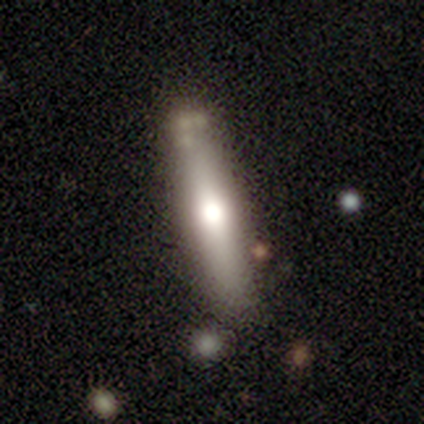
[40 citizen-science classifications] smooth_or_featured: featured or disk (p=0.68) [alt: smooth p=0.30]
disk_edge_on: yes (p=0.93) [alt: no p=0.07]
edge_on_bulge: rounded (p=0.84) [alt: boxy p=0.08]
merging: none (p=0.62) [alt: minor disturbance p=0.21]